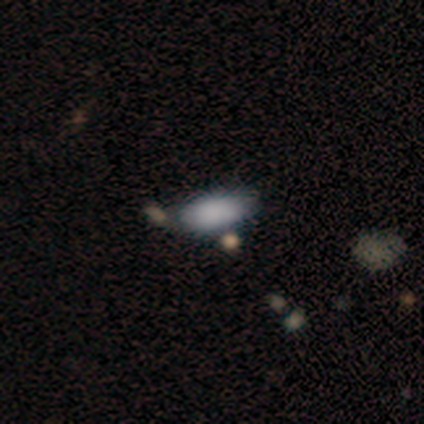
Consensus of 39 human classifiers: This appears to be a smooth galaxy with no disk features (87%) that is in between round and cigar-shaped (88%). Merging: none (59%).